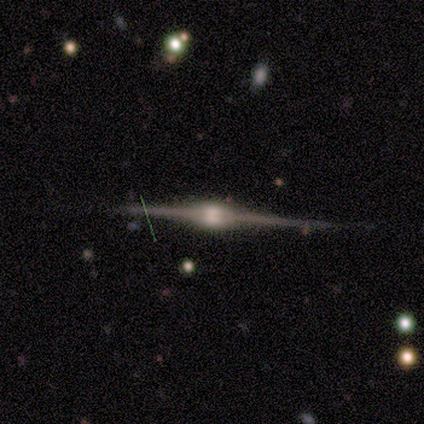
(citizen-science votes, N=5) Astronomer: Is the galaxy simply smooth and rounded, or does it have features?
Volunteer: featured or disk — 100%.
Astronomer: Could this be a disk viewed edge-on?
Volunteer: yes — 100%.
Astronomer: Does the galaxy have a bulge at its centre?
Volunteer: rounded — 80%.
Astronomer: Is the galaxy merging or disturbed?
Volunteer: none — 60% (runner-up: minor disturbance, 40%).